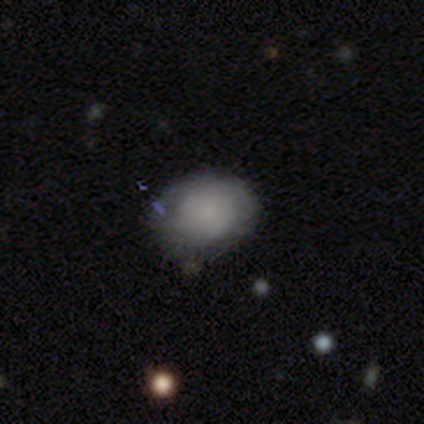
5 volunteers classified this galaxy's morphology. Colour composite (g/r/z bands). It shows a smooth galaxy with no disk features (100%) that is in between round and cigar-shaped (60%). Merging: none (60%).